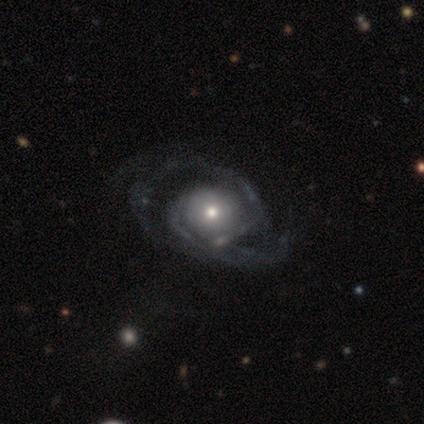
A featured or disk galaxy (87%) with no bar (91%), 2 (75%) medium (44%) spiral arms (97%) and a moderate central bulge (70%). Merging: none (29%).